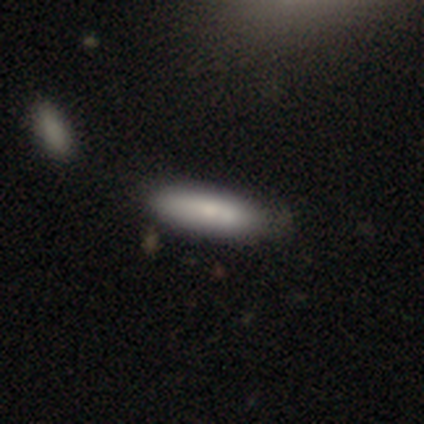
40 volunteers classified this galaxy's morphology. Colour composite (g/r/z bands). It shows a smooth galaxy with no disk features (82%) that is cigar-shaped (52%). Merging: none (45%).